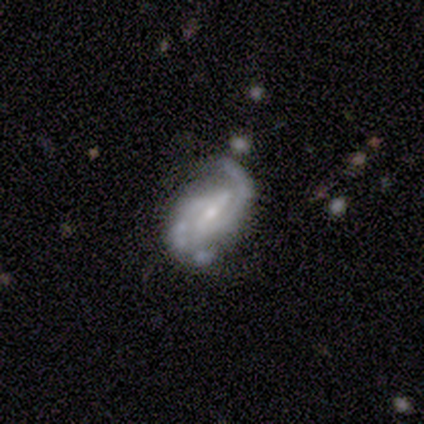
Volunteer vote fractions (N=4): Morphology: type=featured or disk (75%); edge-on=no (100%); bar=strong (33%, tied with weak and no); spiral arms=yes (100%); winding=loose (67%); arm count=2 (100%); bulge=small (67%); merging=major disturbance (50%).